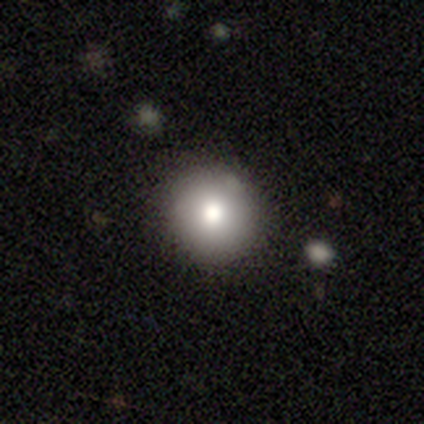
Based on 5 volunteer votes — This appears to be a smooth galaxy with no disk features (100%) that is round (60%). Merging: none (60%).